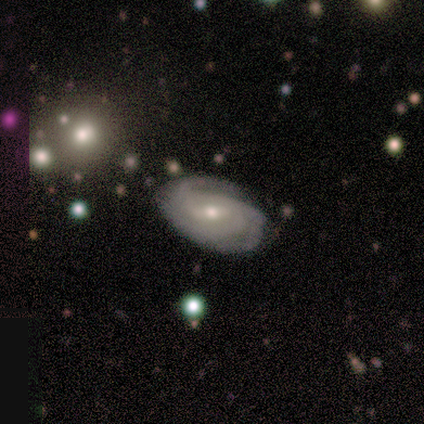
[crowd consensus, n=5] A featured or disk galaxy (100%) with a weak bar (80%), 2 (40%, tied with 3) tight (100%) spiral arms (100%) and a moderate central bulge (60%). Merging: none (80%).